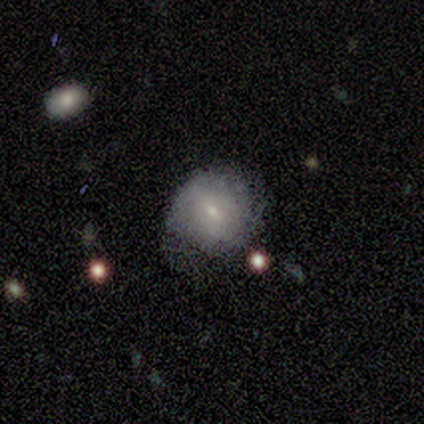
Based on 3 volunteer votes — Q: Smooth or featured?
A: featured or disk (67%); runner-up: smooth (33%)
Q: Edge-on disk?
A: no (100%)
Q: Bar?
A: weak (100%)
Q: Spiral arms?
A: yes (50%); tied with: no (50%)
Q: Spiral winding?
A: tight (100%)
Q: Spiral arm count?
A: can't tell (100%)
Q: Bulge size?
A: small (100%)
Q: Merging?
A: none (67%); runner-up: major disturbance (33%)